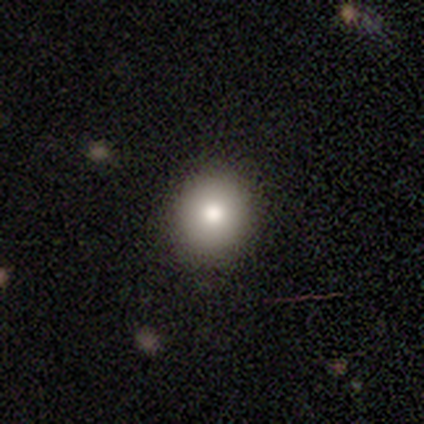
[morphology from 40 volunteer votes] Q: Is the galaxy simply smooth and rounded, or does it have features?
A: smooth — 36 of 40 (90%).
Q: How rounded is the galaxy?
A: round — 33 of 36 (92%).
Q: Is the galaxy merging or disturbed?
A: none — 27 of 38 (71%).